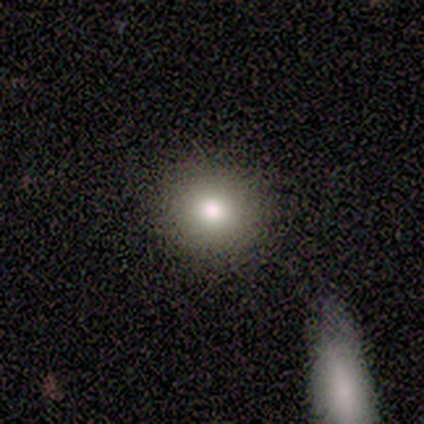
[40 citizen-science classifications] A smooth galaxy with no disk features (90%) that is round (92%).

Vote fractions:
- Smooth or featured? smooth: 90% / featured or disk: 5% / star or artifact: 5%
- How rounded? round: 92% / in between: 8% / cigar-shaped: 0%
- Merging? none: 95% / major disturbance: 3% / merger: 3% / minor disturbance: 0%